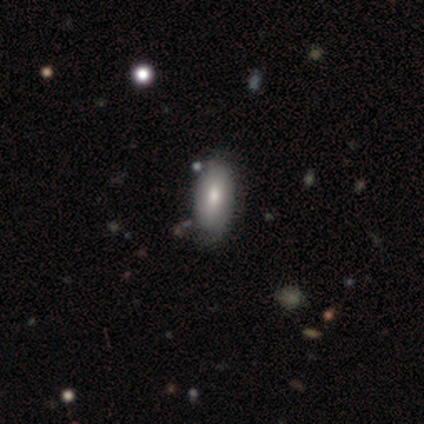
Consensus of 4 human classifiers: Morphology: type=smooth (50%); roundness=in between (100%); merging=none (100%).